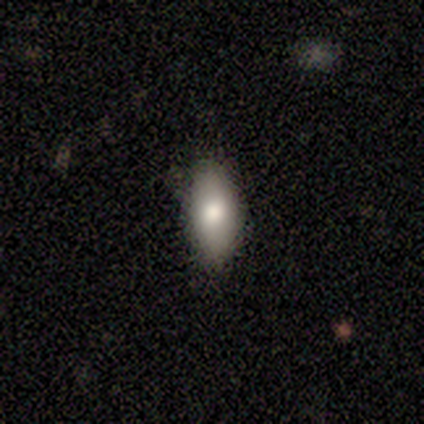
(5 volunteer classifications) Smooth or featured?
  - smooth: 80% *
  - star or artifact: 20%
  - featured or disk: 0%
How rounded?
  - in between: 100% *
  - round: 0%
  - cigar-shaped: 0%
Merging?
  - none: 100% *
  - minor disturbance: 0%
  - major disturbance: 0%
  - merger: 0%